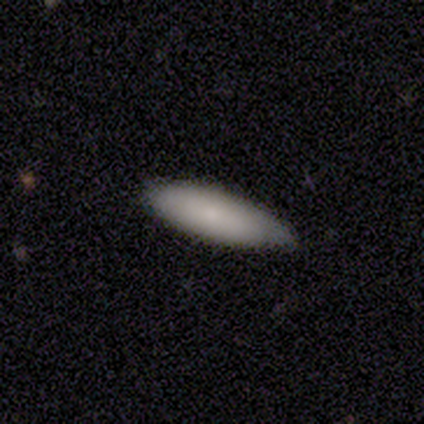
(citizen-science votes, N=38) smooth-or-featured: smooth: 76% | featured or disk: 18% | star or artifact: 5%
  how-rounded: cigar-shaped: 72% | in between: 28% | round: 0%
  merging: none: 67% | minor disturbance: 25% | merger: 6% | major disturbance: 3%